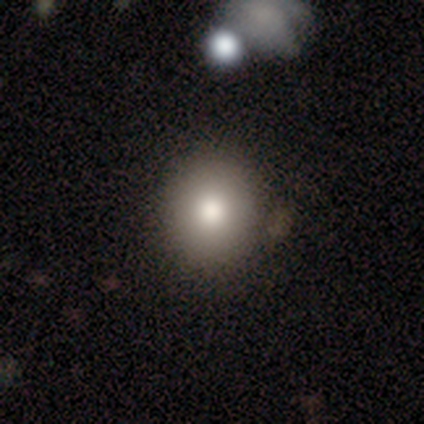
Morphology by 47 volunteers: This appears to be a smooth galaxy with no disk features (81%) that is round (87%). Merging: none (77%).